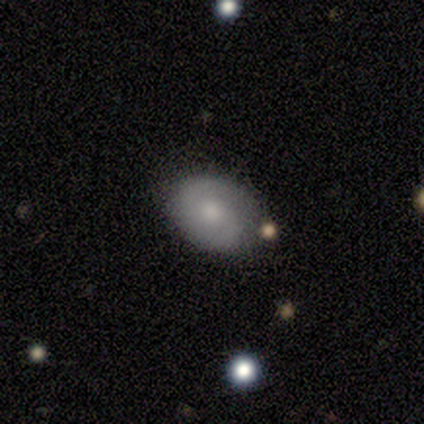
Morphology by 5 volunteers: Smooth or featured?
  - smooth: 80% *
  - featured or disk: 20%
  - star or artifact: 0%
How rounded?
  - in between: 75% *
  - cigar-shaped: 25%
  - round: 0%
Merging?
  - none: 80% *
  - minor disturbance: 20%
  - major disturbance: 0%
  - merger: 0%